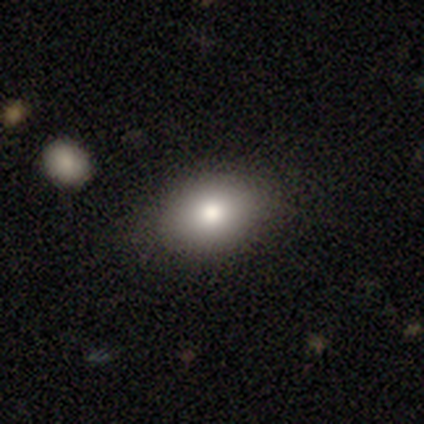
Smooth or featured?
  - smooth: 75% *
  - featured or disk: 12%
  - star or artifact: 12%
How rounded?
  - in between: 100% *
  - round: 0%
  - cigar-shaped: 0%
Merging?
  - none: 79% *
  - minor disturbance: 14%
  - major disturbance: 7%
  - merger: 0%